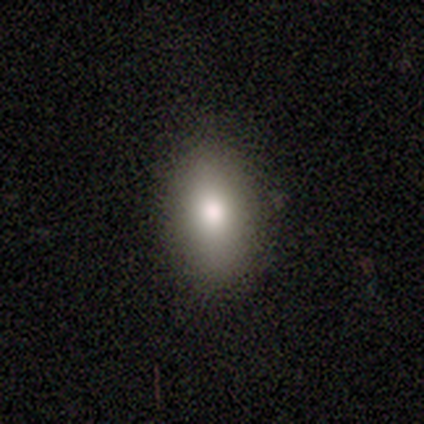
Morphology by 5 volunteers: Smooth or featured? smooth (60%)
How rounded? in between (100%)
Merging? none (100%)